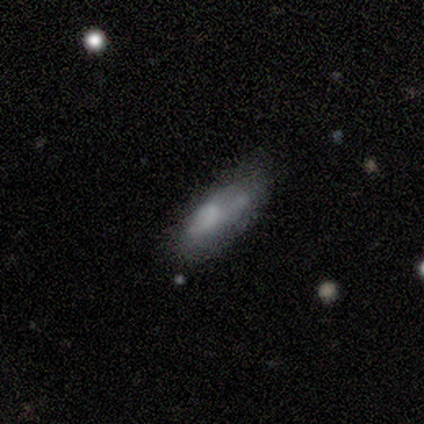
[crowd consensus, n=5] smooth_or_featured: smooth (p=0.60) [alt: featured or disk p=0.40]
how_rounded: in between (p=1.00)
merging: minor disturbance (p=0.60) [alt: none p=0.20]